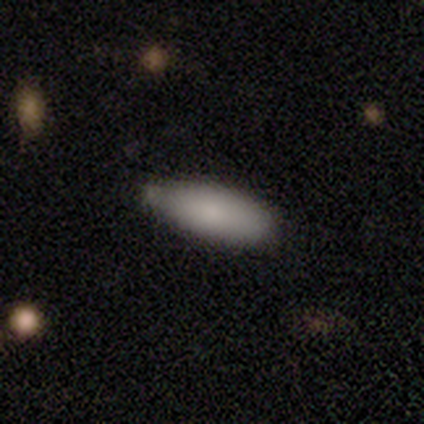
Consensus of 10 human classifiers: A smooth galaxy with no disk features (80%) that is in between round and cigar-shaped (88%). Merging: minor disturbance (70%).